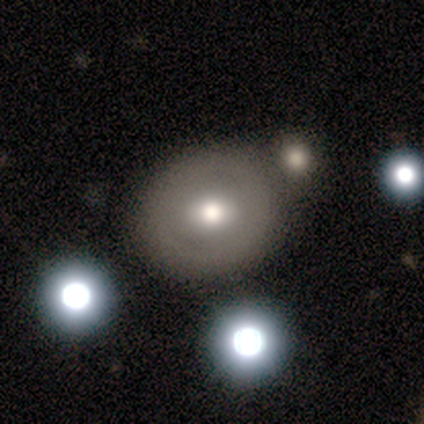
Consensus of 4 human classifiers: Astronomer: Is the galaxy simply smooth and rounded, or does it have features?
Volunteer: smooth — 50%.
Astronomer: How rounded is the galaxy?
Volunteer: round — 100%.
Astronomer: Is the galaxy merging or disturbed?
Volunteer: none — 100%.